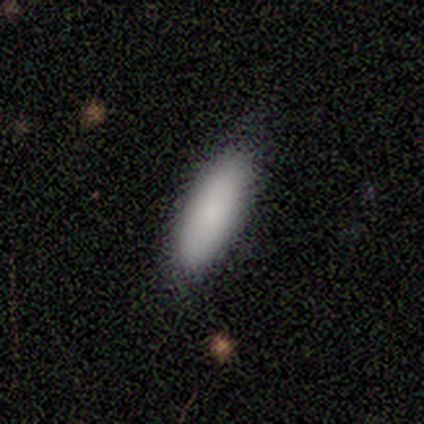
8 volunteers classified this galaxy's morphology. Volunteers were most divided on "how rounded": in between: 57%, cigar-shaped: 43%, round: 0%. More confident: merging — none (100%); smooth or featured — smooth (88%).